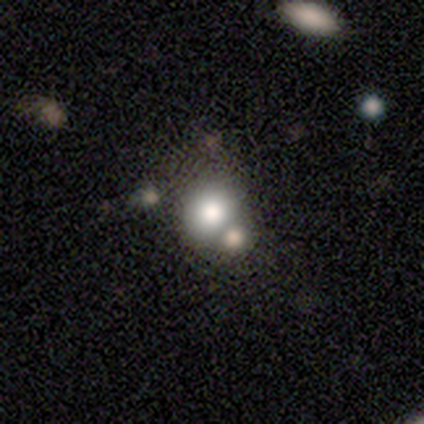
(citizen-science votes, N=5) Smooth or featured? smooth (60%)
How rounded? round (67%)
Merging? none (67%)